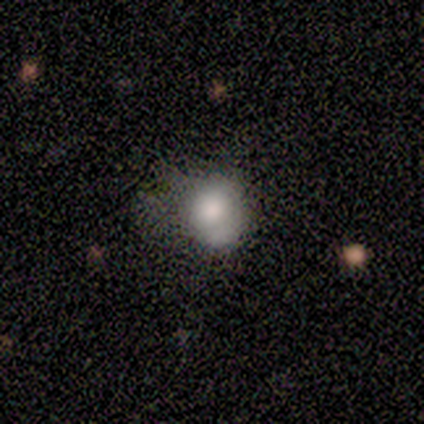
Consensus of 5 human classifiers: Morphology: type=smooth (60%); roundness=in between (67%); merging=major disturbance (60%).